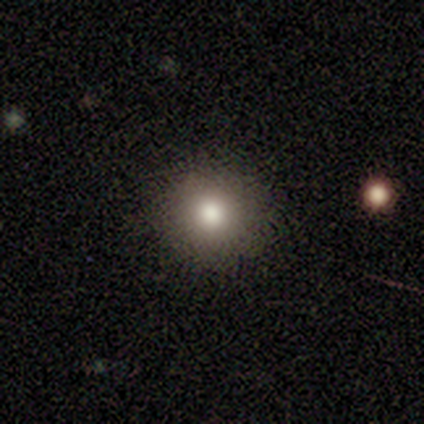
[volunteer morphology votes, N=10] This appears to be a smooth galaxy with no disk features (70%) that is round (100%). Merging: none (89%).